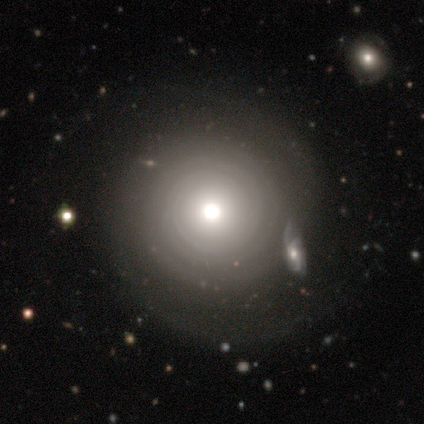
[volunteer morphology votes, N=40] A featured or disk galaxy (62%) with no bar (88%), 2 (36%, tied with can't tell) tight (73%) spiral arms (88%) and a moderate central bulge (72%). Merging: none (62%).